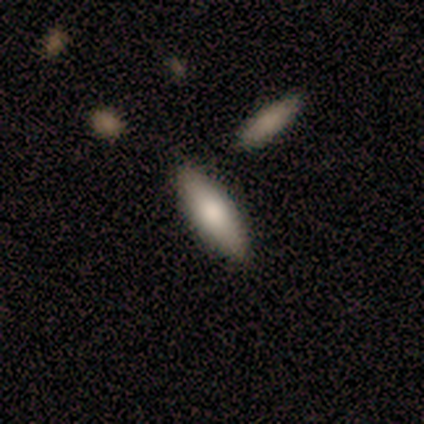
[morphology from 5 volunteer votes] This is clearly a smooth galaxy (100%). How rounded: clearly in between (80%). Merging: clearly none (100%).